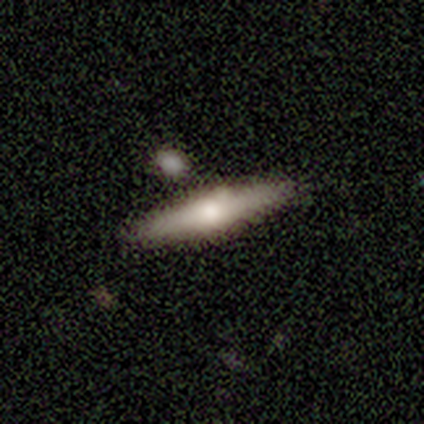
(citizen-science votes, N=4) This is possibly a smooth galaxy (50%, tied with featured or disk). How rounded: possibly in between (50%, tied with cigar-shaped). Merging: clearly none (100%).